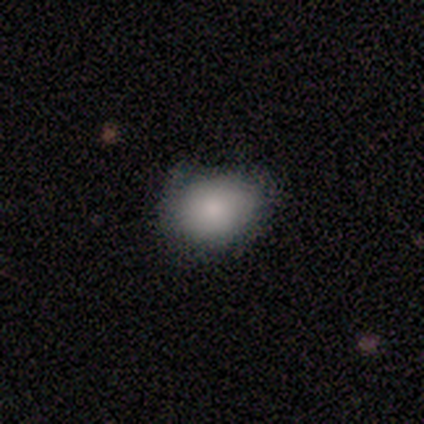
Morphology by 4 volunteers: smooth-or-featured: smooth: 75% | featured or disk: 25% | star or artifact: 0%
  how-rounded: round: 67% | in between: 33% | cigar-shaped: 0%
  merging: none: 50% (tied) | minor disturbance: 50% (tied) | major disturbance: 0% | merger: 0%